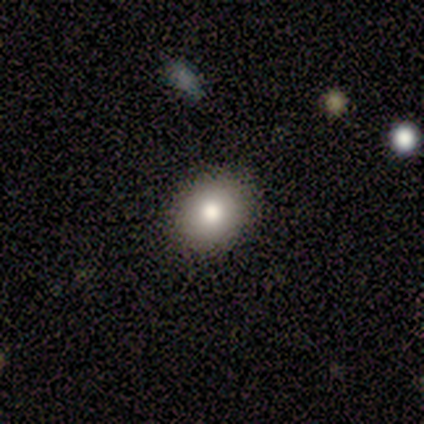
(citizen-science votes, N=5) Morphology: type=smooth (60%); roundness=in between (67%); merging=none (50%, tied with minor disturbance).